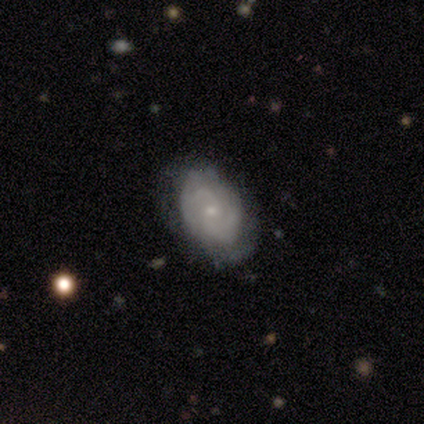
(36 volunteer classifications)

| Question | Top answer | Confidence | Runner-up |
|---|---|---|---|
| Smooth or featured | featured or disk | 72% | smooth (17%) |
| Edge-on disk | no | 85% | yes (15%) |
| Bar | no | 68% | weak (32%) |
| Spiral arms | yes | 95% | no (5%) |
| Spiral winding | tight | 57% | medium (33%) |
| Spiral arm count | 2 | 43% | can't tell (33%) |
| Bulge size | small | 82% | moderate (9%) |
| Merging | none | 56% | minor disturbance (34%) |